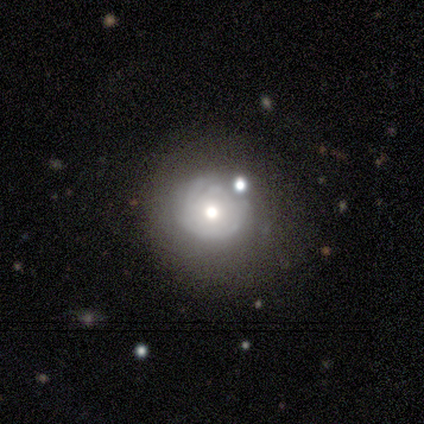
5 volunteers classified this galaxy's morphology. Smooth or featured: featured or disk — 100%
Edge-on disk: no — 100%
Bar: no — 80% (weak — 20%)
Spiral arms: no — 80% (yes — 20%)
Bulge size: moderate — 60% (large — 20%)
Merging: major disturbance — 40% (none — 20%)